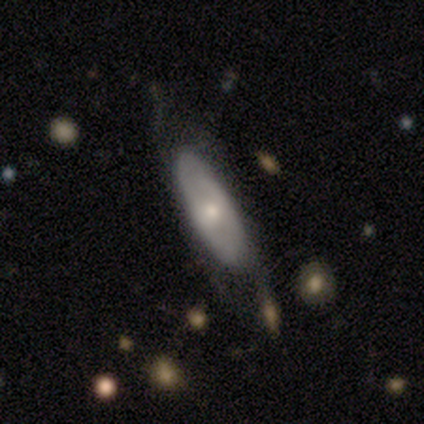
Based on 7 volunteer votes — Smooth or featured? 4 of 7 (57%) said smooth. How rounded? 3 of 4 (75%) said in between. Merging? 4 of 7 (57%) said minor disturbance.